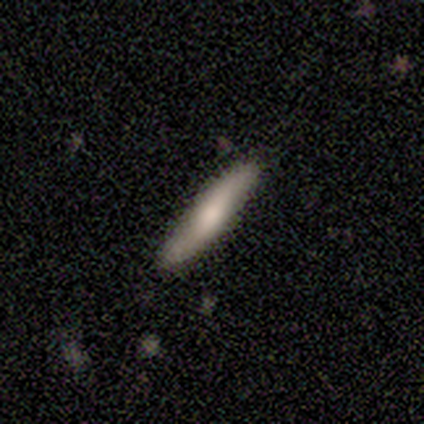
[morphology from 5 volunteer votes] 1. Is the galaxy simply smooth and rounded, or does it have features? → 60% smooth, 20% featured or disk, 20% star or artifact.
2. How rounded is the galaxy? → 67% cigar-shaped, 33% in between, 0% round.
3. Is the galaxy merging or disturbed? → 100% none, 0% minor disturbance, 0% major disturbance, 0% merger.